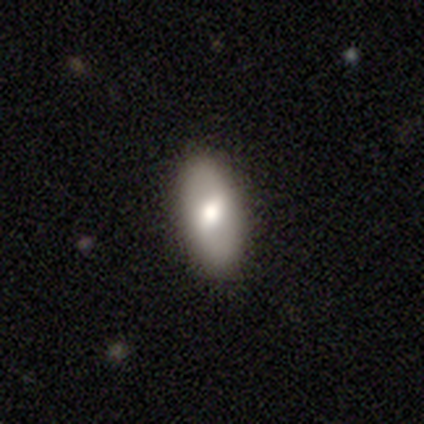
Volunteers were most divided on "smooth or featured": smooth: 60%, featured or disk: 20%, star or artifact: 20%. More confident: how rounded — in between (100%); merging — none (100%).